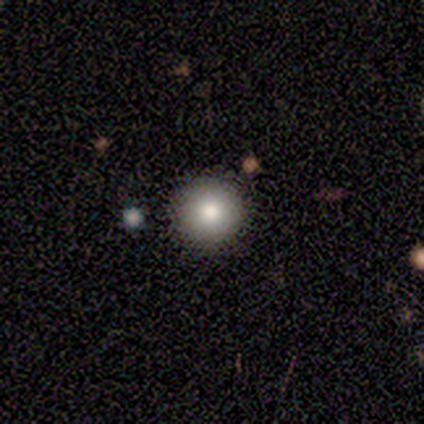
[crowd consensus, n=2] smooth 100%, featured or disk 0%, star or artifact 0%. Down the decision tree: how rounded — round (100%); merging — none (100%).